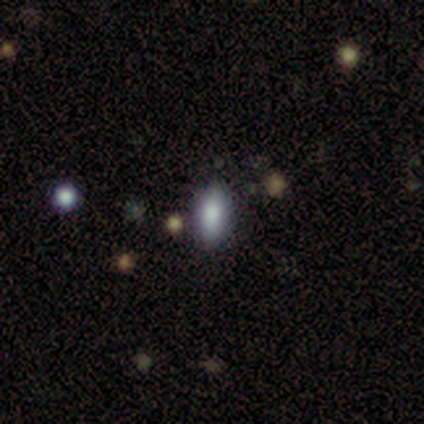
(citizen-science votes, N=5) Volunteers were most divided on "smooth or featured": star or artifact: 60%, smooth: 40%, featured or disk: 0%.